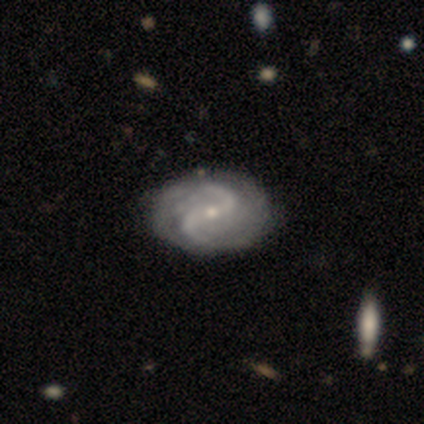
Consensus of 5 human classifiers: Volunteers were most divided on "bulge size": small: 60%, moderate: 40%, dominant: 0%, large: 0%, none: 0%. More confident: smooth or featured — featured or disk (100%); edge-on disk — no (100%); spiral arms — yes (80%); spiral arm count — 2 (75%); merging — none (60%); bar — strong (60%); spiral winding — tight (50%).